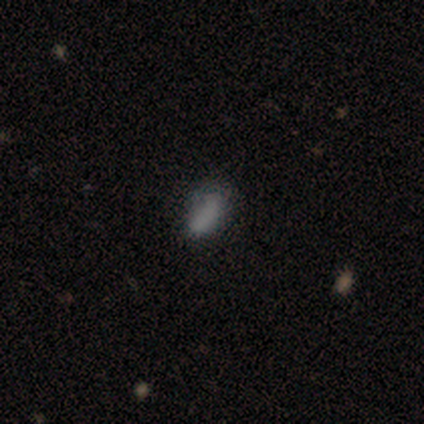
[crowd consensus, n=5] Q: Smooth or featured?
A: smooth (80%); runner-up: star or artifact (20%)
Q: How rounded?
A: in between (100%)
Q: Merging?
A: none (75%); runner-up: major disturbance (25%)